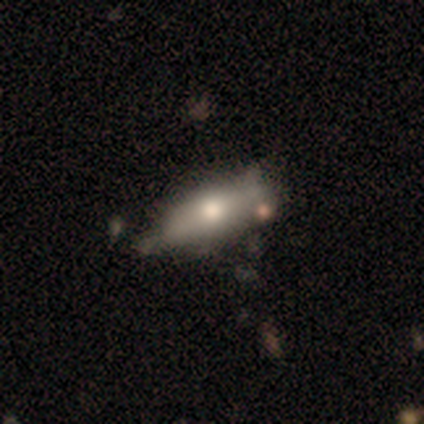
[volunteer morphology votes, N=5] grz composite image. It shows a smooth galaxy with no disk features (60%) that is in between round and cigar-shaped (67%). Merging: minor disturbance (100%).